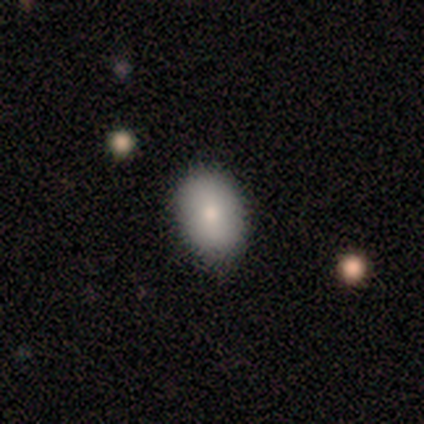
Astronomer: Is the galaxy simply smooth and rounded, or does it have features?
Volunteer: smooth — 75%.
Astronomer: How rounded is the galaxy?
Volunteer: in between — 100%.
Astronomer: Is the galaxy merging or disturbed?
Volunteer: none — 100%.